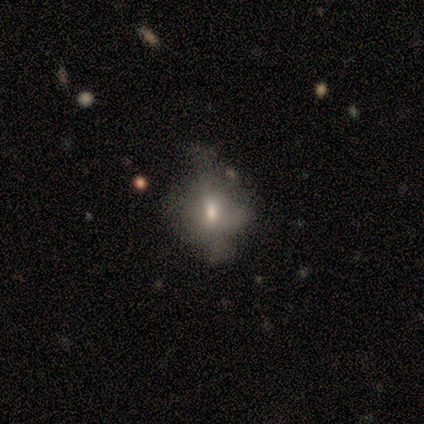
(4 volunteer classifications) Volunteers were most divided on "smooth or featured": smooth: 50%, featured or disk: 25%, star or artifact: 25%. More confident: how rounded — round (100%); merging — none (67%).